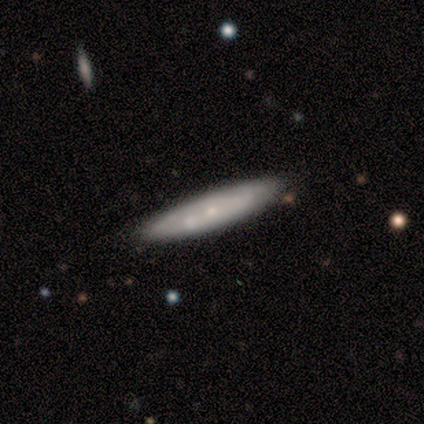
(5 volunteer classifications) This appears to be a featured or disk galaxy (60%) viewed edge-on (67%) with a rounded central bulge (100%). Merging: none (75%).